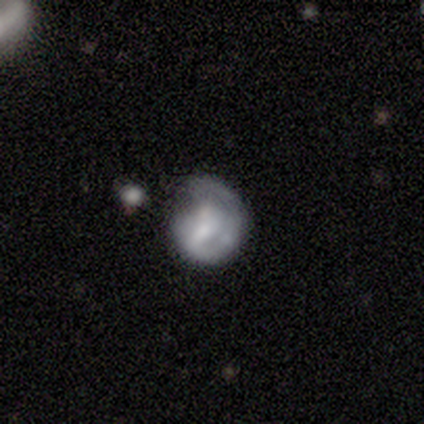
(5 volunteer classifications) Smooth or featured? 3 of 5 (60%) said smooth. How rounded? 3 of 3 (100%) said round. Merging? 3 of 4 (75%) said none.